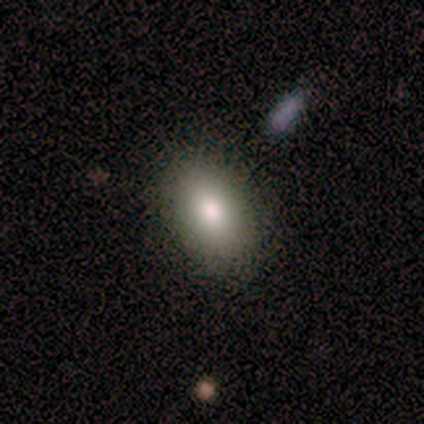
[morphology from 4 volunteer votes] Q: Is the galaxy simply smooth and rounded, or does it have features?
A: smooth — 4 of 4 (100%).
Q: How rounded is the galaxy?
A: in between — 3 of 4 (75%).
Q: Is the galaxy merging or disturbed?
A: none — 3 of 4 (75%).